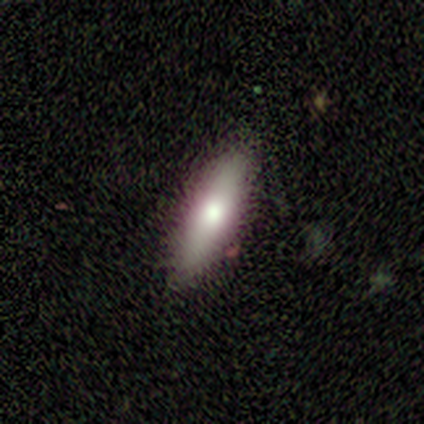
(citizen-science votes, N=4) smooth_or_featured: smooth (p=0.75) [alt: featured or disk p=0.25]
how_rounded: cigar-shaped (p=0.67) [alt: in between p=0.33]
merging: none (p=1.00)